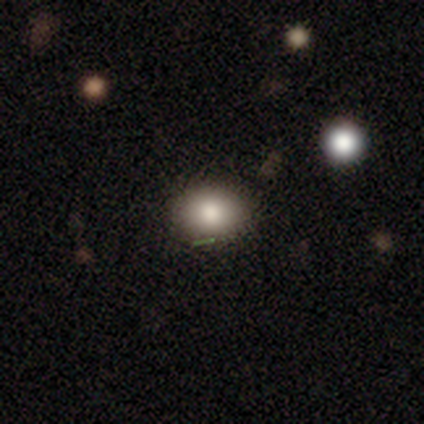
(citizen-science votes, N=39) Morphology: type=smooth (87%); roundness=in between (71%); merging=none (71%).